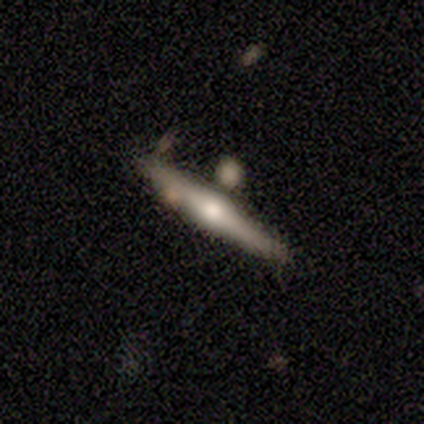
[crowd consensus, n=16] Volunteers were most divided on "smooth or featured": featured or disk: 56%, smooth: 44%, star or artifact: 0%. More confident: edge-on disk — yes (100%); edge-on bulge — rounded (100%); merging — none (94%).